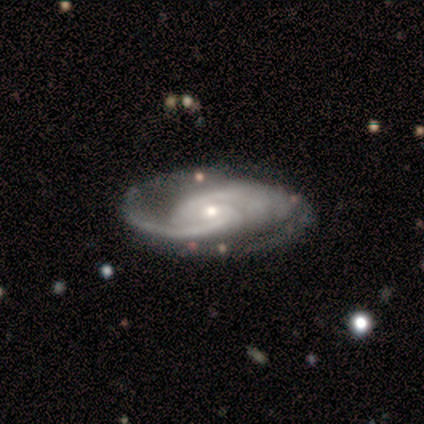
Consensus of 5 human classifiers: Smooth or featured: featured or disk — 80% (star or artifact — 20%)
Edge-on disk: no — 100%
Bar: no — 100%
Spiral arms: yes — 100%
Spiral winding: tight — 75% (medium — 25%)
Spiral arm count: 2 — 75% (1 — 25%)
Bulge size: small — 75% (moderate — 25%)
Merging: none — 75% (minor disturbance — 25%)